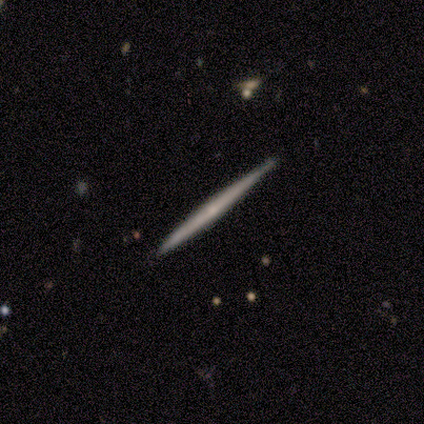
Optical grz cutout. It shows a featured or disk galaxy (61%) viewed edge-on (92%) with no central bulge (78%). Merging: none (82%).